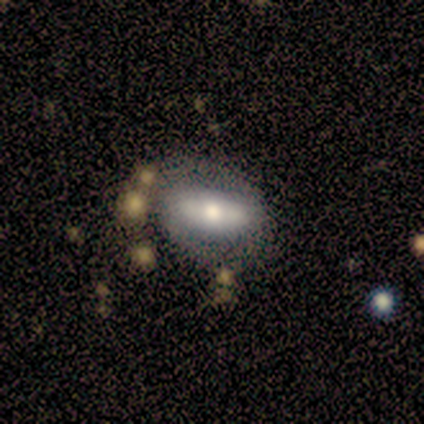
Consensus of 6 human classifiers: Smooth or featured? 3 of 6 (50%, tied with featured or disk) said smooth. How rounded? 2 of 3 (67%) said in between. Merging? 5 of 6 (83%) said none.